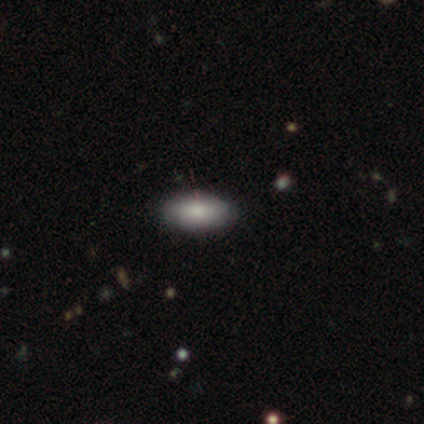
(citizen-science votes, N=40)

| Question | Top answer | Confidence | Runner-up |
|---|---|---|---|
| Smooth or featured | smooth | 88% | featured or disk (8%) |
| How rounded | in between | 86% | cigar-shaped (11%) |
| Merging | none | 89% | minor disturbance (11%) |